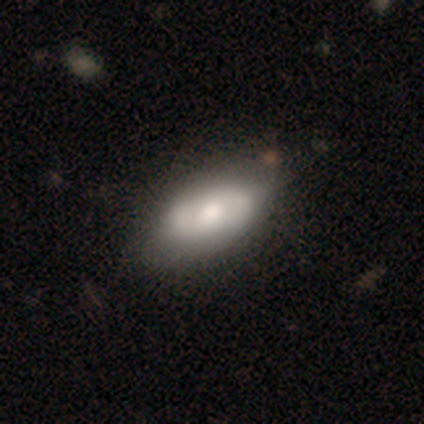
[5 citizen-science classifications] Smooth or featured?
  - featured or disk: 80% *
  - smooth: 20%
  - star or artifact: 0%
Edge-on disk?
  - no: 100% *
  - yes: 0%
Bar?
  - no: 75% *
  - weak: 25%
  - strong: 0%
Spiral arms?
  - yes: 50% * (tied)
  - no: 50% * (tied)
Spiral winding?
  - tight: 50% * (tied)
  - medium: 50% * (tied)
  - loose: 0%
Spiral arm count?
  - 2: 100% *
  - 1: 0%
  - 3: 0%
  - 4: 0%
  - more than 4: 0%
  - can't tell: 0%
Bulge size?
  - moderate: 75% *
  - large: 25%
  - dominant: 0%
  - small: 0%
  - none: 0%
Merging?
  - none: 100% *
  - minor disturbance: 0%
  - major disturbance: 0%
  - merger: 0%